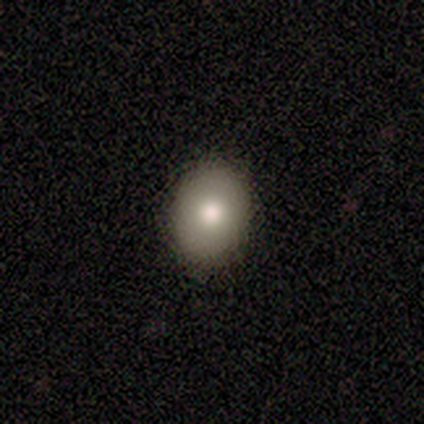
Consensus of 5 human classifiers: smooth-or-featured: smooth: 80% | star or artifact: 20% | featured or disk: 0%
  how-rounded: round: 50% (tied) | in between: 50% (tied) | cigar-shaped: 0%
  merging: none: 75% | minor disturbance: 25% | major disturbance: 0% | merger: 0%